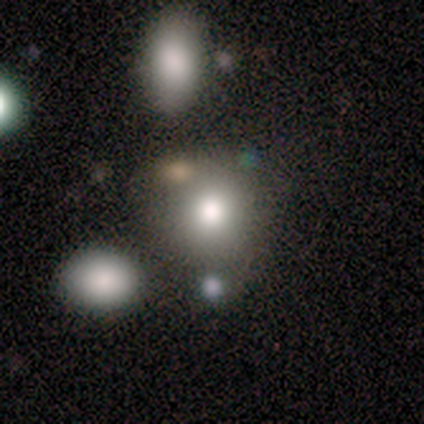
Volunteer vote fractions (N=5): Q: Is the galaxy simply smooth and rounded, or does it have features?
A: smooth — 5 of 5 (100%).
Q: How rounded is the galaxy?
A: round — 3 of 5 (60%).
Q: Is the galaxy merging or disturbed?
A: none — 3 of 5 (60%).